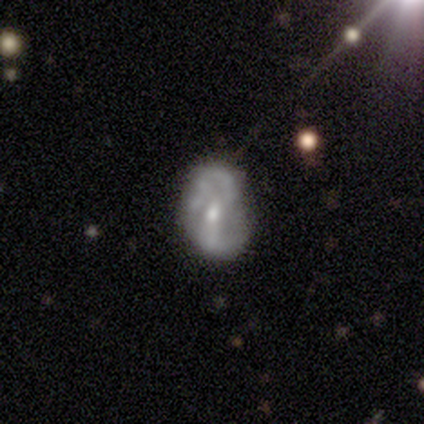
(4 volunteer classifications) Smooth or featured? featured or disk (100%)
Edge-on disk? no (75%)
Bar? no (67%)
Spiral arms? yes (67%)
Spiral winding? medium (50%, tied with loose)
Spiral arm count? 2 (50%, tied with 3)
Bulge size? moderate (100%)
Merging? none (75%)